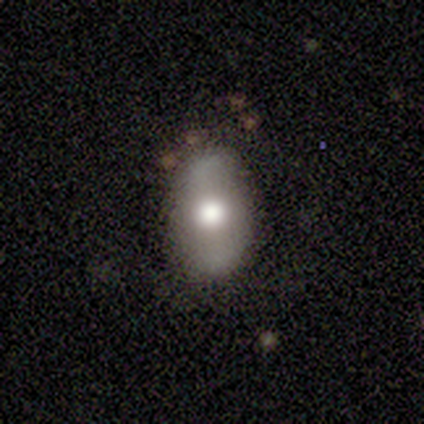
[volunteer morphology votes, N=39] Smooth or featured: smooth — 51% (featured or disk — 41%)
How rounded: in between — 90% (round — 10%)
Merging: none — 69% (minor disturbance — 19%)